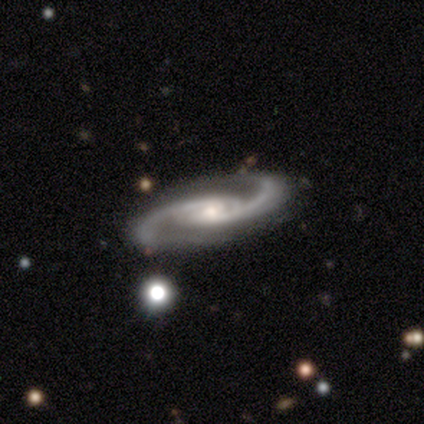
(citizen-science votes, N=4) Q: Smooth or featured?
A: featured or disk (100%)
Q: Edge-on disk?
A: no (100%)
Q: Bar?
A: no (75%); runner-up: weak (25%)
Q: Spiral arms?
A: yes (100%)
Q: Spiral winding?
A: tight (50%); tied with: medium (50%)
Q: Spiral arm count?
A: 2 (100%)
Q: Bulge size?
A: small (75%); runner-up: moderate (25%)
Q: Merging?
A: none (100%)